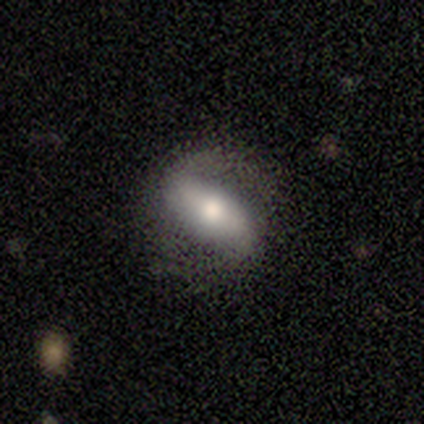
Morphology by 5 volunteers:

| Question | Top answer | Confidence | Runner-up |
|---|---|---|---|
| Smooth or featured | featured or disk | 80% | smooth (20%) |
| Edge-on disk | no | 75% | yes (25%) |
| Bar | strong | 67% | no (33%) |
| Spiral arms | yes | 67% | no (33%) |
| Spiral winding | medium | 50% | tied: loose (50%) |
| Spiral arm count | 2 | 50% | tied: can't tell (50%) |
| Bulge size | moderate | 67% | large (33%) |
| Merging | none | 80% | minor disturbance (20%) |